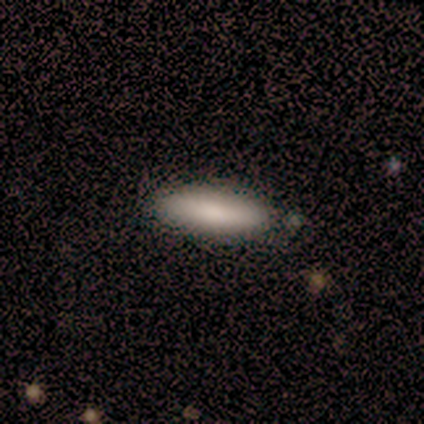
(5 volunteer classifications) Morphology: type=smooth (100%); roundness=cigar-shaped (80%); merging=none (100%).